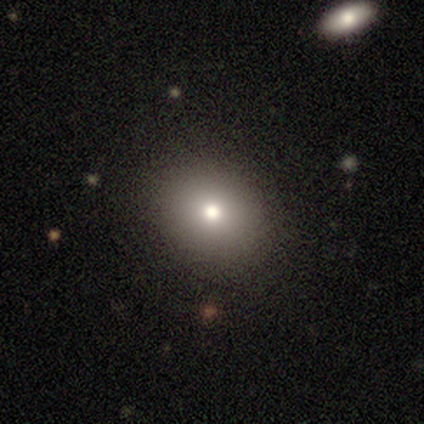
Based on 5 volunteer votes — This is likely a smooth galaxy (60%). How rounded: likely in between (67%). Merging: clearly none (100%).